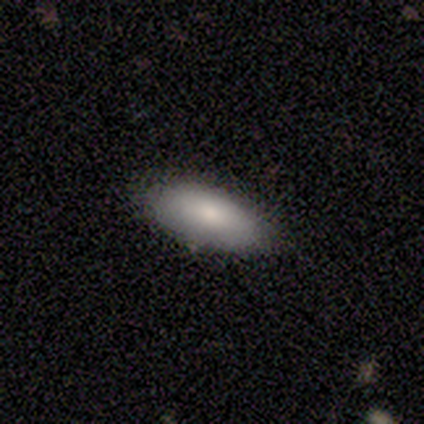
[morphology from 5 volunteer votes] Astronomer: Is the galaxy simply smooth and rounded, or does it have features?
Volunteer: smooth — 100%.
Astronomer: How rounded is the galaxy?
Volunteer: in between — 100%.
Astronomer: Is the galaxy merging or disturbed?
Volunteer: none — 100%.